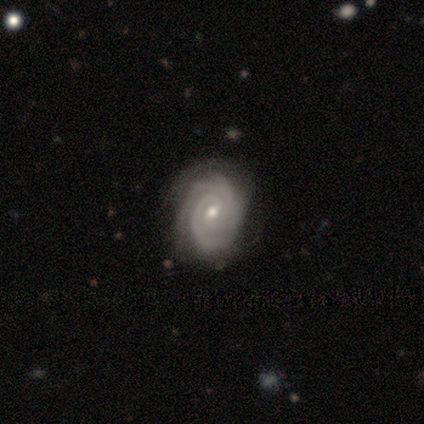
smooth_or_featured: featured or disk (p=1.00)
disk_edge_on: no (p=1.00)
bar: no (p=0.60) [alt: weak p=0.40]
has_spiral_arms: yes (p=1.00)
spiral_winding: tight (p=0.80) [alt: medium p=0.20]
spiral_arm_count: 3 (p=1.00)
bulge_size: small (p=0.60) [alt: moderate p=0.40]
merging: none (p=0.80) [alt: minor disturbance p=0.20]